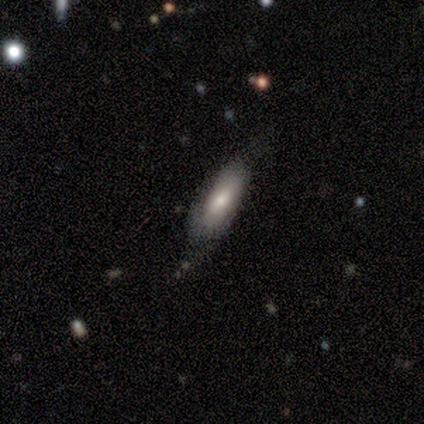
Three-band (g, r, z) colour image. It shows a smooth galaxy with no disk features (100%) that is cigar-shaped (75%). Merging: none (100%).